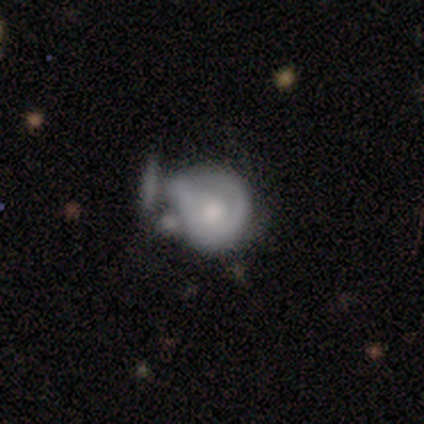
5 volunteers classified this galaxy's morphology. Smooth or featured? 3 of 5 (60%) said featured or disk. Edge-on disk? 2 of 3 (67%) said no. Bar? 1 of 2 (50%, tied with no) said weak. Spiral arms? 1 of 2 (50%, tied with no) said yes. Spiral winding? 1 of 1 (100%) said medium. Spiral arm count? 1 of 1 (100%) said can't tell. Bulge size? 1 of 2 (50%, tied with moderate) said large. Merging? 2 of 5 (40%, tied with merger) said minor disturbance.